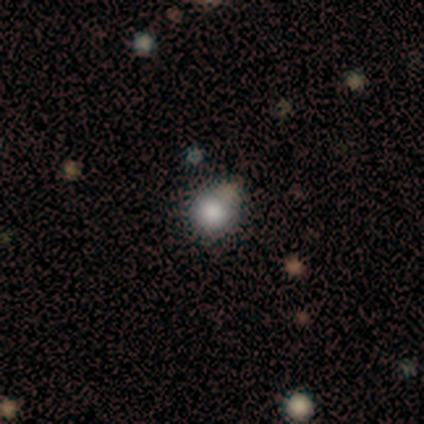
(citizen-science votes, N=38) Smooth or featured? 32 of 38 (84%) said smooth. How rounded? 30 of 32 (94%) said round. Merging? 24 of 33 (73%) said none.